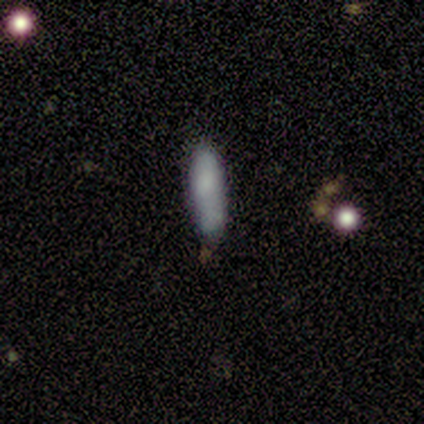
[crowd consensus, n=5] Smooth or featured? smooth (80%)
How rounded? in between (75%)
Merging? none (80%)